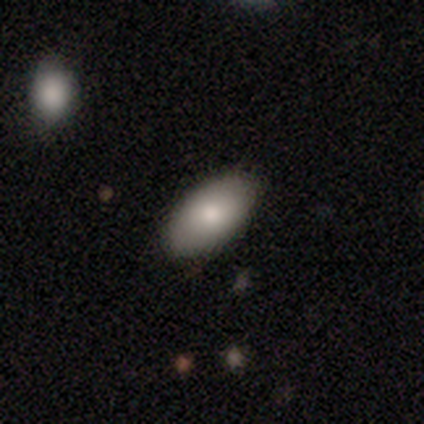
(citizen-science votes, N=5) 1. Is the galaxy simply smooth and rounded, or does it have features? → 80% smooth, 20% featured or disk, 0% star or artifact.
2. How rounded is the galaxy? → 100% in between, 0% round, 0% cigar-shaped.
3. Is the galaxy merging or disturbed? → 100% none, 0% minor disturbance, 0% major disturbance, 0% merger.